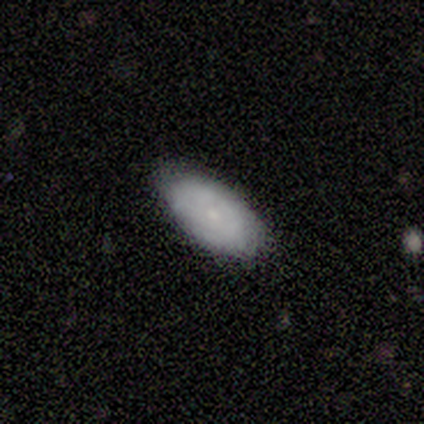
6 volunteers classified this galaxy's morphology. Q: Smooth or featured?
A: smooth (83%); runner-up: featured or disk (17%)
Q: How rounded?
A: in between (100%)
Q: Merging?
A: none (83%); runner-up: minor disturbance (17%)